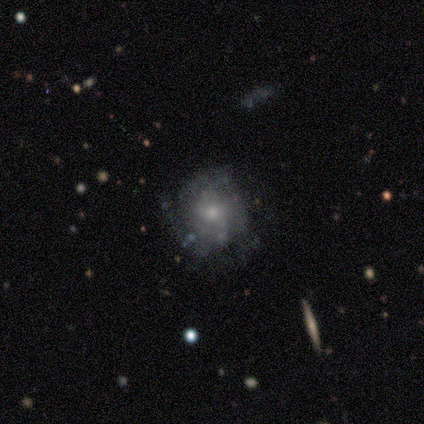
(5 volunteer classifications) smooth-or-featured: featured or disk: 60% | smooth: 40% | star or artifact: 0%
  disk-edge-on: no: 100% | yes: 0%
    bar: no: 100% | strong: 0% | weak: 0%
    has-spiral-arms: yes: 67% | no: 33%
      spiral-winding: medium: 50% (tied) | loose: 50% (tied) | tight: 0%
      spiral-arm-count: 2: 50% (tied) | can't tell: 50% (tied) | 1: 0% | 3: 0% | 4: 0% | more than 4: 0%
    bulge-size: moderate: 67% | small: 33% | dominant: 0% | large: 0% | none: 0%
  merging: none: 60% | minor disturbance: 20% | major disturbance: 20% | merger: 0%